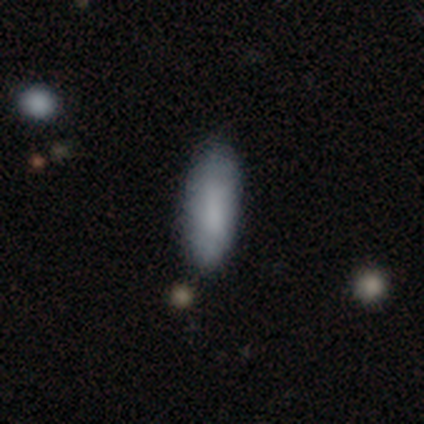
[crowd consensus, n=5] Smooth or featured? smooth (100%)
How rounded? in between (80%)
Merging? none (60%)